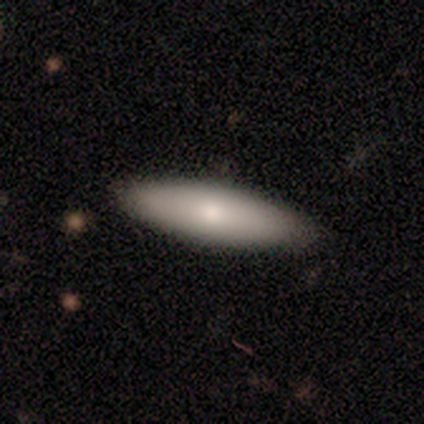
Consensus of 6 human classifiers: Morphology: type=smooth (83%); roundness=cigar-shaped (80%); merging=none (100%).